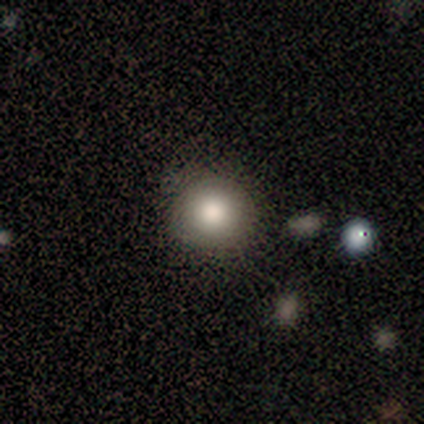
Q: Smooth or featured?
A: smooth (80%); runner-up: featured or disk (20%)
Q: How rounded?
A: round (100%)
Q: Merging?
A: none (80%); runner-up: minor disturbance (20%)